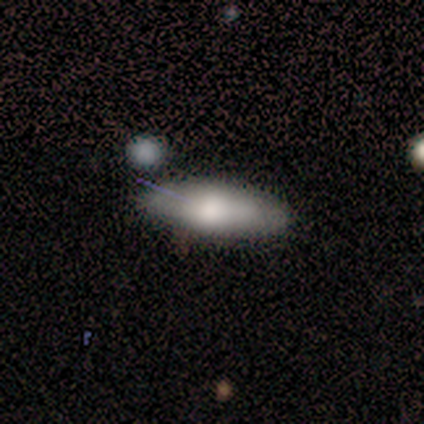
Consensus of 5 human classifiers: Volunteers were most divided on "smooth or featured": smooth: 80%, featured or disk: 20%, star or artifact: 0%. More confident: how rounded — in between (100%); merging — none (100%).